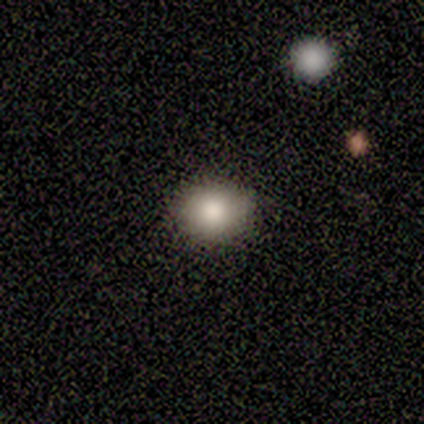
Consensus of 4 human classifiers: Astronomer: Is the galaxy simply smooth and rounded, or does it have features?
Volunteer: smooth — 100%.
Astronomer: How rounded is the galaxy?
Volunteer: round — 75%.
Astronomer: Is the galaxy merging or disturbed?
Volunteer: none — 75%.